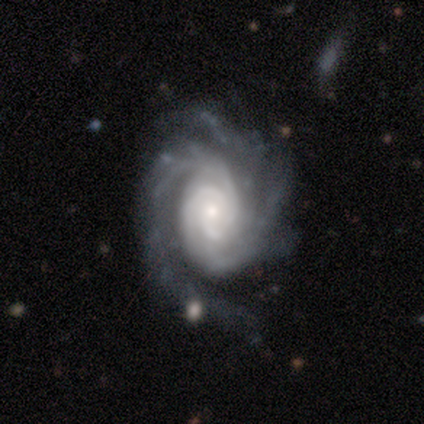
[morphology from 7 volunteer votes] Overall: featured or disk (100%). Edge-on disk: no (100%). Bar: no (86%). Spiral arms: yes (100%). Spiral arm count: 2 (57%; 3 43%). Spiral winding: tight (57%; medium 43%). Bulge size: moderate (43%, tied with small). Merging: none (57%; minor disturbance 29%).